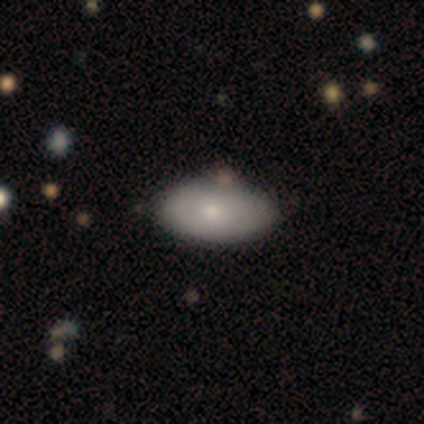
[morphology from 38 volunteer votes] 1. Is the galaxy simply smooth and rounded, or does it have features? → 74% smooth, 26% featured or disk, 0% star or artifact.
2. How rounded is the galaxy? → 96% in between, 4% round, 0% cigar-shaped.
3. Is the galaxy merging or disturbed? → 61% none, 8% minor disturbance, 5% merger, 3% major disturbance.